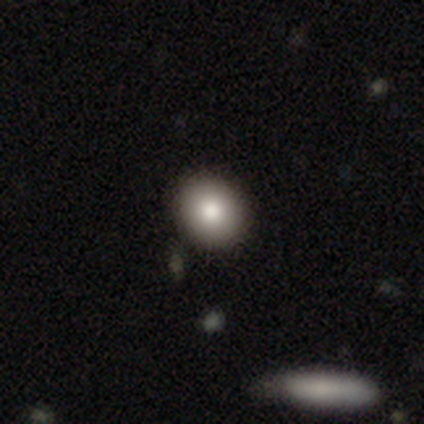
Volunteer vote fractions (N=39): Smooth or featured?
  - smooth: 87% *
  - star or artifact: 8%
  - featured or disk: 5%
How rounded?
  - round: 71% *
  - in between: 26%
  - cigar-shaped: 3%
Merging?
  - none: 92% *
  - minor disturbance: 6%
  - major disturbance: 3%
  - merger: 0%